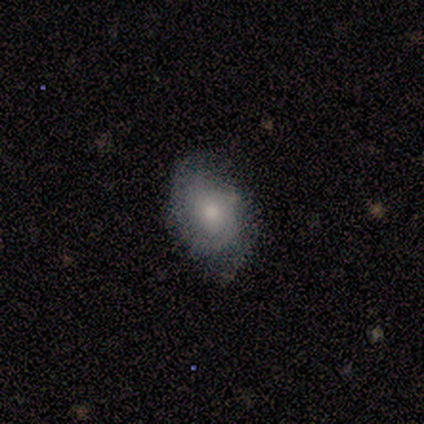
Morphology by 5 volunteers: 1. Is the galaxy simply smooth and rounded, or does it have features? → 60% smooth, 40% featured or disk, 0% star or artifact.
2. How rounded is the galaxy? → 100% in between, 0% round, 0% cigar-shaped.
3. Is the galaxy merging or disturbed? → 80% none, 20% minor disturbance, 0% major disturbance, 0% merger.